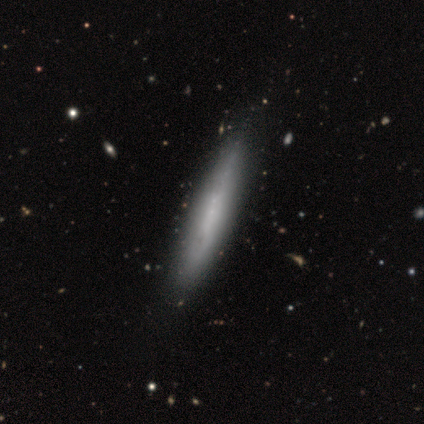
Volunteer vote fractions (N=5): This is clearly a featured or disk galaxy (80%). It is clearly viewed edge-on (100%). Edge-on bulge: likely none (75%). Merging: clearly none (80%).